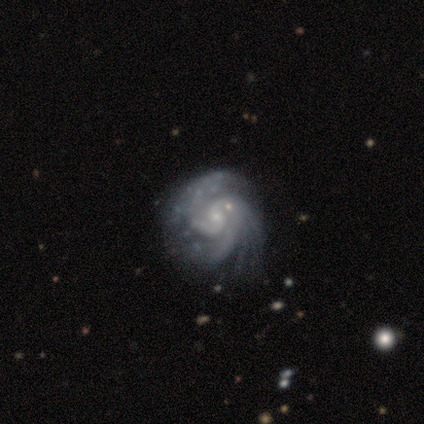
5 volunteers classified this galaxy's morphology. Overall: featured or disk (100%). Edge-on disk: no (100%). Bar: no (100%). Spiral arms: yes (100%). Spiral arm count: 3 (40%; 2 20%). Spiral winding: tight (60%; medium 40%). Bulge size: small (80%). Merging: minor disturbance (60%; none 40%).